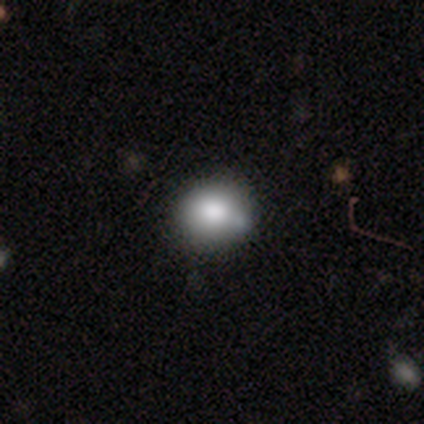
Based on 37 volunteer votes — This appears to be a smooth galaxy with no disk features (86%) that is round (78%). Merging: none (61%).